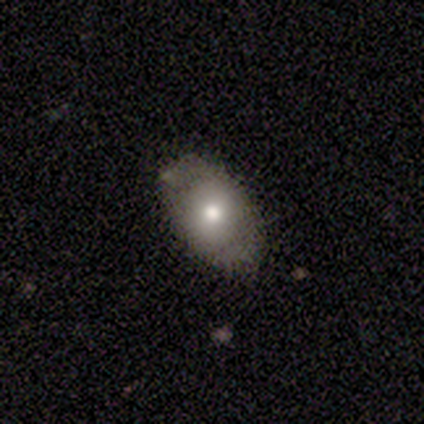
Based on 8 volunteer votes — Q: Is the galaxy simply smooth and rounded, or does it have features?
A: smooth — 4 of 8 (50%).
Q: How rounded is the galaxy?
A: in between — 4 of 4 (100%).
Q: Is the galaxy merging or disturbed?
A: none — 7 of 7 (100%).